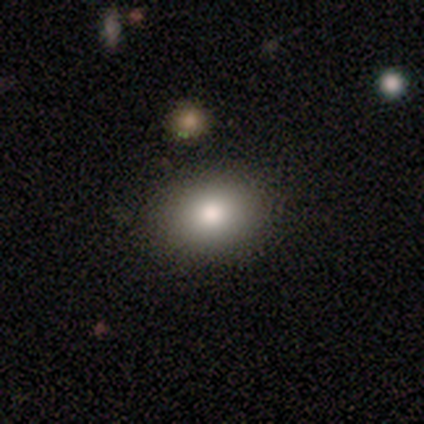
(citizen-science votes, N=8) Q: Smooth or featured?
A: smooth (62%); runner-up: featured or disk (25%)
Q: How rounded?
A: in between (80%); runner-up: round (20%)
Q: Merging?
A: none (86%); runner-up: major disturbance (14%)